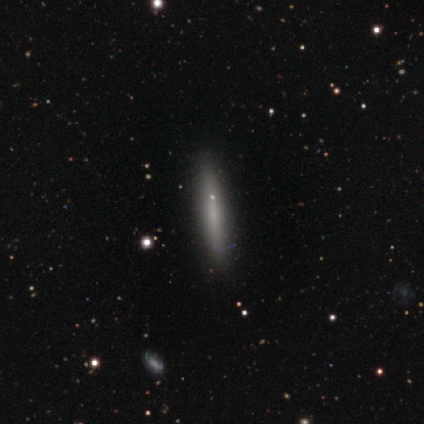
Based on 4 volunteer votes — A star or artifact, not a galaxy (50%).

Vote fractions:
- Smooth or featured? star or artifact: 50% / smooth: 25% / featured or disk: 25%